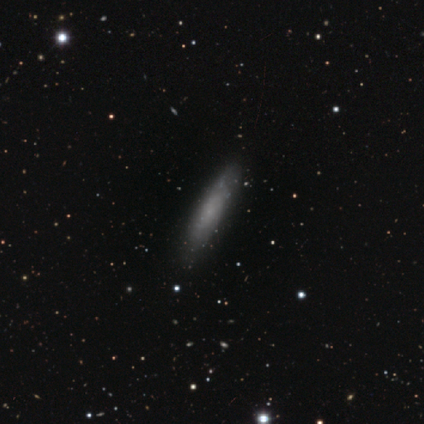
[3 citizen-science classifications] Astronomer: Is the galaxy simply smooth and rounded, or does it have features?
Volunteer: smooth — 67%.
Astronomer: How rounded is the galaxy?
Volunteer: in between — 50%, tied with cigar-shaped at 50%.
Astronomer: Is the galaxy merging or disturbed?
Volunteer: none — 100%.